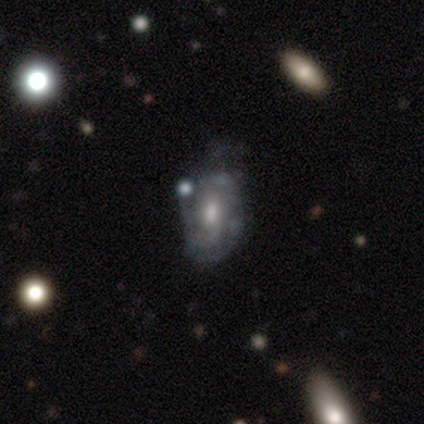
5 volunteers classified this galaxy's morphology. featured or disk 80%, smooth 20%, star or artifact 0%. Down the decision tree: edge-on disk — no (100%); bar — weak (75%); spiral arms — yes (50%, tied with no); spiral arm count — 1 (50%, tied with can't tell); spiral winding — tight (50%, tied with loose); bulge size — moderate (50%); merging — none (60%).